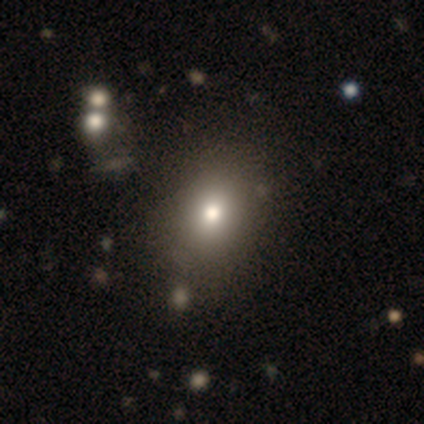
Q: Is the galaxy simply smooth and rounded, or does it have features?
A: smooth — 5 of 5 (100%).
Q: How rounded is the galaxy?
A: in between — 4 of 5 (80%).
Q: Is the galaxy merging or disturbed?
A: none — 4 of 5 (80%).